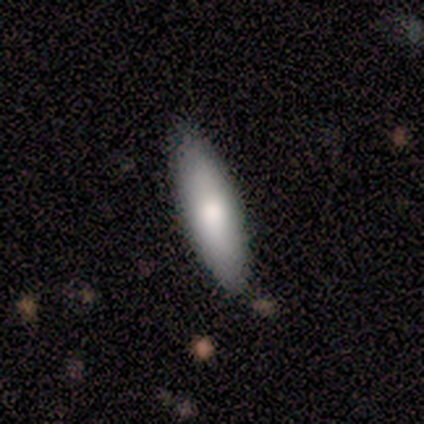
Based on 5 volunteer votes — smooth-or-featured: smooth: 100% | featured or disk: 0% | star or artifact: 0%
  how-rounded: in between: 60% | cigar-shaped: 40% | round: 0%
  merging: none: 80% | major disturbance: 20% | minor disturbance: 0% | merger: 0%